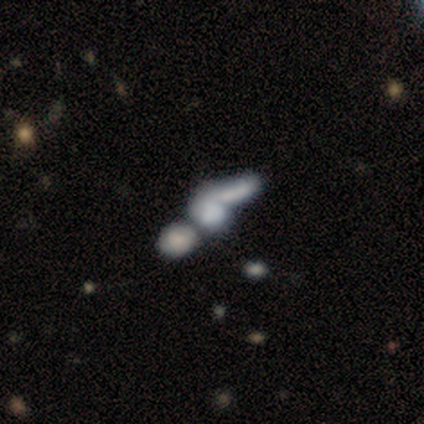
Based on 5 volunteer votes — This appears to be a featured or disk galaxy (40%, tied with star or artifact) viewed edge-on (50%, tied with no) with a rounded central bulge (100%). Merging: merger (67%).